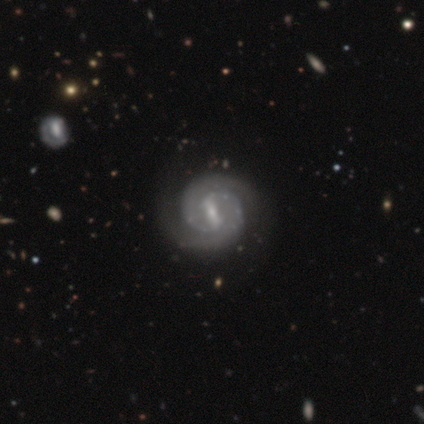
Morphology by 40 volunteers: featured or disk 95%, smooth 2%, star or artifact 2%. Down the decision tree: edge-on disk — no (97%); bar — strong (70%); spiral arms — yes (100%); spiral arm count — 2 (100%); spiral winding — tight (68%); bulge size — small (70%); merging — none (72%).